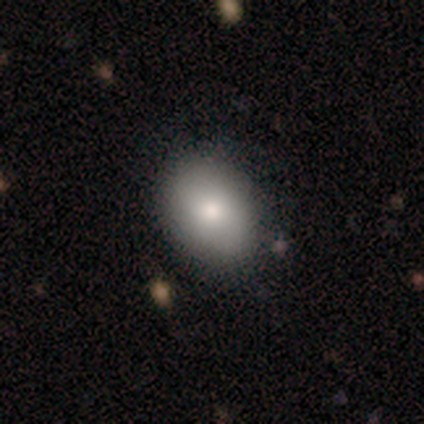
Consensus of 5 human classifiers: Smooth or featured: smooth — 100%
How rounded: in between — 80% (round — 20%)
Merging: none — 40% (tied with minor disturbance — 40%)